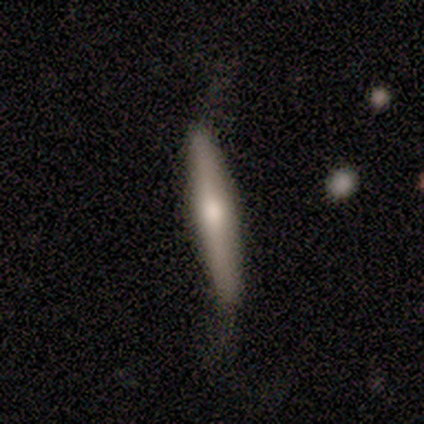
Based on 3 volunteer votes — smooth-or-featured: featured or disk: 100% | smooth: 0% | star or artifact: 0%
  disk-edge-on: yes: 67% | no: 33%
    edge-on-bulge: rounded: 100% | boxy: 0% | none: 0%
  merging: minor disturbance: 67% | none: 33% | major disturbance: 0% | merger: 0%